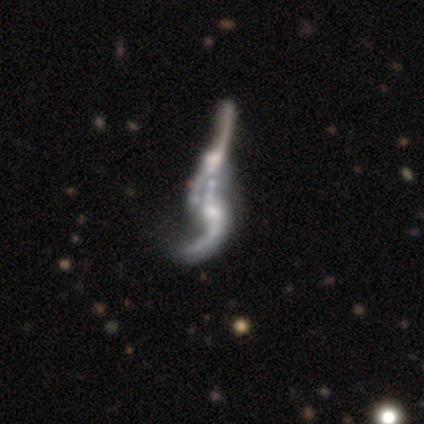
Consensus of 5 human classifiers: Smooth or featured? featured or disk (100%)
Edge-on disk? no (100%)
Bar? no (80%)
Spiral arms? yes (60%)
Spiral winding? loose (67%)
Spiral arm count? 2 (100%)
Bulge size? none (60%)
Merging? merger (80%)